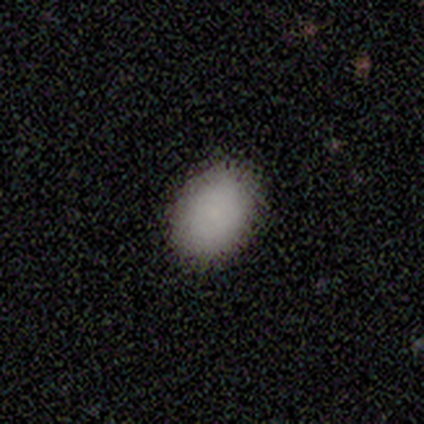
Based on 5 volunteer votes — Overall: smooth (100%). How rounded: in between (100%). Merging: none (100%).